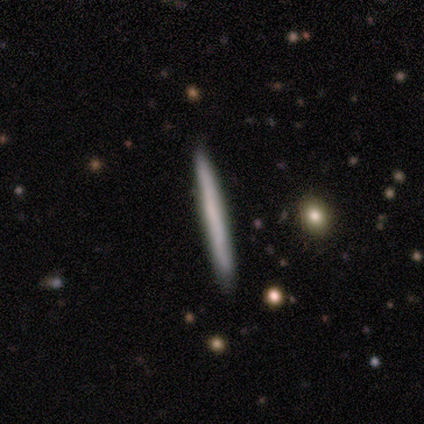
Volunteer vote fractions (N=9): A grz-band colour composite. It shows a smooth galaxy with no disk features (67%) that is cigar-shaped (100%). Merging: none (100%).